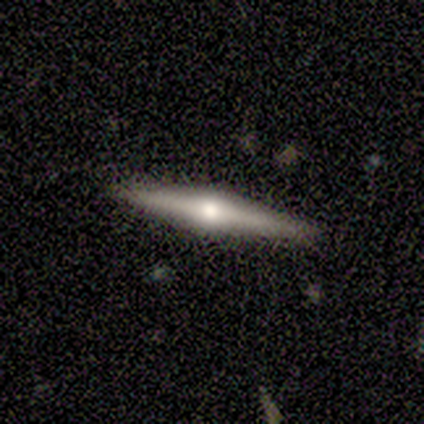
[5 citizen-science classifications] Volunteers were most divided on "smooth or featured": featured or disk: 80%, star or artifact: 20%, smooth: 0%. More confident: edge-on disk — yes (100%); edge-on bulge — rounded (100%); merging — none (100%).